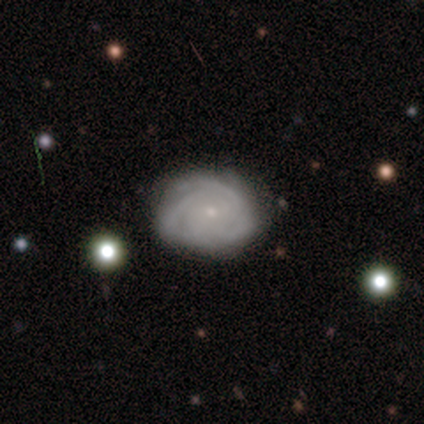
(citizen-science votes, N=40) Smooth or featured?
  - featured or disk: 72% *
  - smooth: 25%
  - star or artifact: 2%
Edge-on disk?
  - no: 97% *
  - yes: 3%
Bar?
  - no: 61% *
  - weak: 32%
  - strong: 7%
Spiral arms?
  - yes: 93% *
  - no: 7%
Spiral winding?
  - tight: 92% *
  - medium: 8%
  - loose: 0%
Spiral arm count?
  - can't tell: 42% *
  - 4: 23%
  - 3: 19%
  - 2: 15%
  - 1: 0%
  - more than 4: 0%
Bulge size?
  - small: 96% *
  - none: 4%
  - dominant: 0%
  - large: 0%
  - moderate: 0%
Merging?
  - none: 72% *
  - minor disturbance: 23%
  - major disturbance: 5%
  - merger: 0%